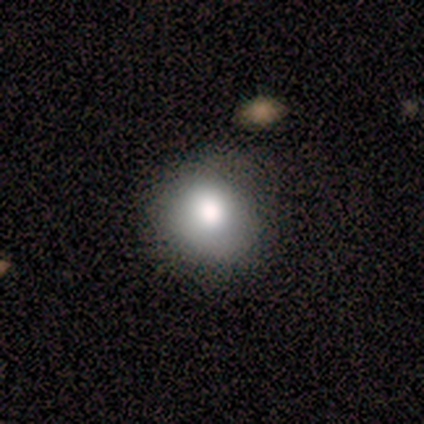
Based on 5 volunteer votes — Smooth or featured: smooth — 80% (star or artifact — 20%)
How rounded: round — 75% (in between — 25%)
Merging: none — 50% (minor disturbance — 25%)